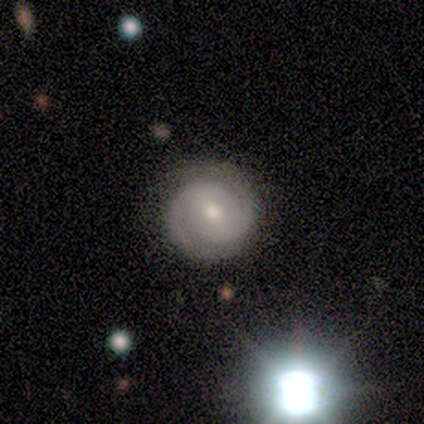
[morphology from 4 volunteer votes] smooth_or_featured: featured or disk (p=1.00)
disk_edge_on: no (p=1.00)
bar: weak (p=0.50) [tied with: no p=0.50]
has_spiral_arms: yes (p=1.00)
spiral_winding: tight (p=0.50) [alt: medium p=0.25]
spiral_arm_count: 2 (p=1.00)
bulge_size: moderate (p=0.50) [tied with: small p=0.50]
merging: none (p=0.50) [tied with: minor disturbance p=0.50]